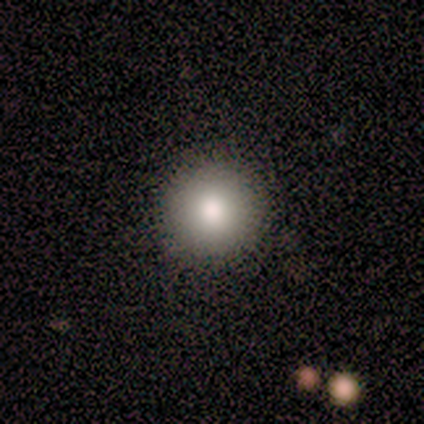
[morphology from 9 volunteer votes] A smooth galaxy with no disk features (89%) that is round (100%).

Vote fractions:
- Smooth or featured? smooth: 89% / featured or disk: 11% / star or artifact: 0%
- How rounded? round: 100% / in between: 0% / cigar-shaped: 0%
- Merging? none: 100% / minor disturbance: 0% / major disturbance: 0% / merger: 0%